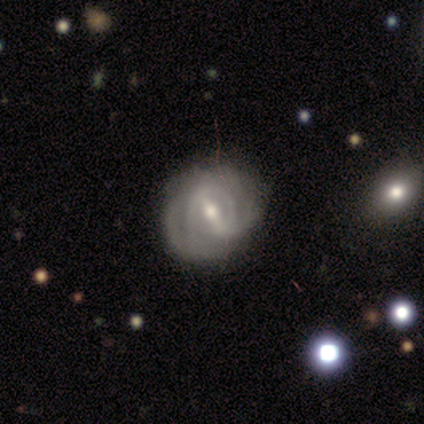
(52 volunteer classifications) smooth_or_featured: featured or disk (p=0.96) [alt: smooth p=0.02]
disk_edge_on: no (p=0.98) [alt: yes p=0.02]
bar: strong (p=0.53) [alt: weak p=0.37]
has_spiral_arms: yes (p=0.80) [alt: no p=0.20]
spiral_winding: tight (p=0.62) [alt: medium p=0.33]
spiral_arm_count: 2 (p=0.44) [alt: can't tell p=0.31]
bulge_size: small (p=0.51) [alt: moderate p=0.47]
merging: none (p=0.73) [alt: minor disturbance p=0.16]